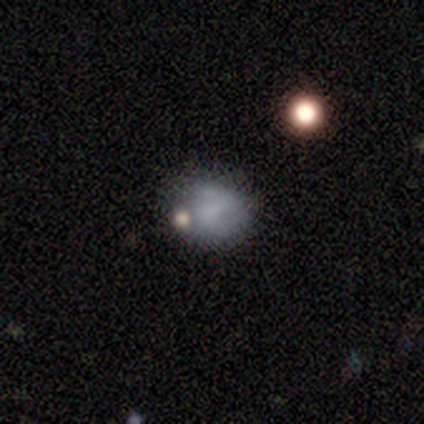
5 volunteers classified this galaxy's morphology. Smooth or featured: smooth — 100%
How rounded: round — 80% (in between — 20%)
Merging: none — 80% (merger — 20%)